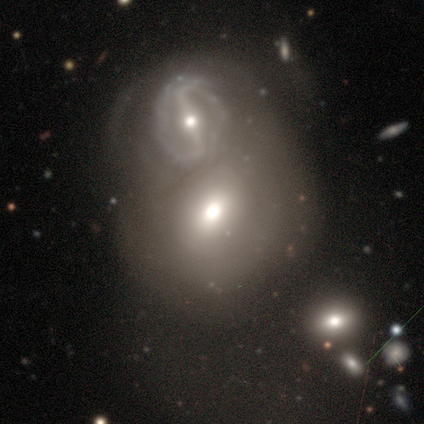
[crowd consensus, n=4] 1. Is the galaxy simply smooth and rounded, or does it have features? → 50% smooth (tied), 50% featured or disk (tied), 0% star or artifact.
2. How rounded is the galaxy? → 50% round (tied), 50% in between (tied), 0% cigar-shaped.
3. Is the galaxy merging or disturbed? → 75% merger, 25% minor disturbance, 0% none, 0% major disturbance.